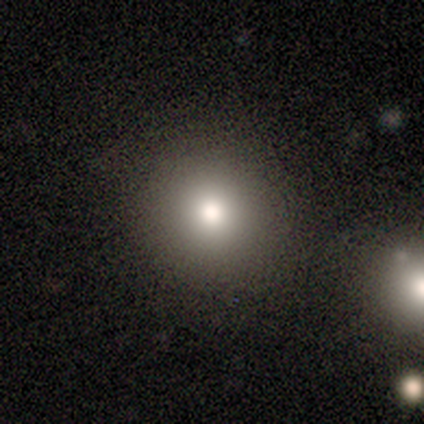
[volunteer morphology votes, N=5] Overall: smooth (60%; star or artifact 40%). How rounded: round (100%). Merging: none (67%; major disturbance 33%).